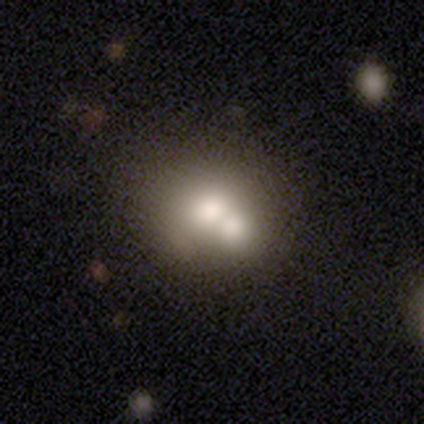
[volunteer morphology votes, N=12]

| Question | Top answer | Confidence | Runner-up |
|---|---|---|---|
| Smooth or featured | smooth | 67% | featured or disk (25%) |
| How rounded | round | 88% | in between (12%) |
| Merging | merger | 45% | none (36%) |